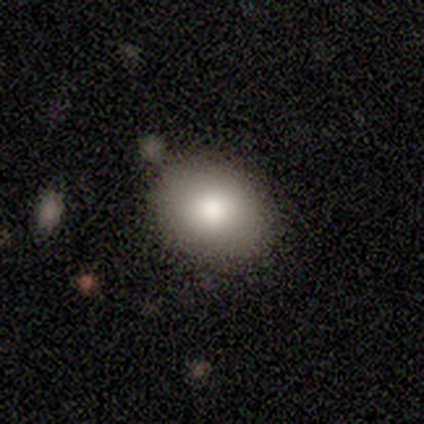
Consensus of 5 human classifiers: smooth-or-featured: smooth: 40% (tied) | featured or disk: 40% (tied) | star or artifact: 20%
  how-rounded: round: 50% (tied) | in between: 50% (tied) | cigar-shaped: 0%
  merging: none: 100% | minor disturbance: 0% | major disturbance: 0% | merger: 0%